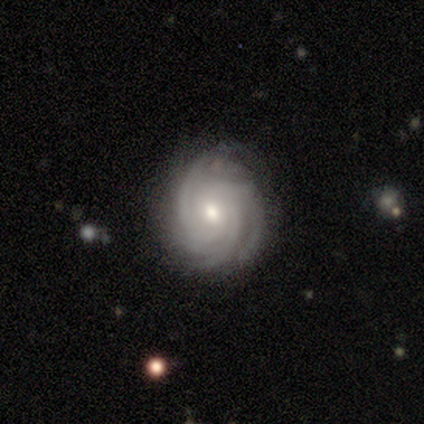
Q: Smooth or featured?
A: featured or disk (94%); runner-up: smooth (4%)
Q: Edge-on disk?
A: no (97%); runner-up: yes (3%)
Q: Bar?
A: no (65%); runner-up: weak (31%)
Q: Spiral arms?
A: yes (100%)
Q: Spiral winding?
A: tight (90%); runner-up: medium (10%)
Q: Spiral arm count?
A: 3 (46%); runner-up: 4 (23%)
Q: Bulge size?
A: moderate (56%); runner-up: small (37%)
Q: Merging?
A: none (50%); runner-up: minor disturbance (7%)